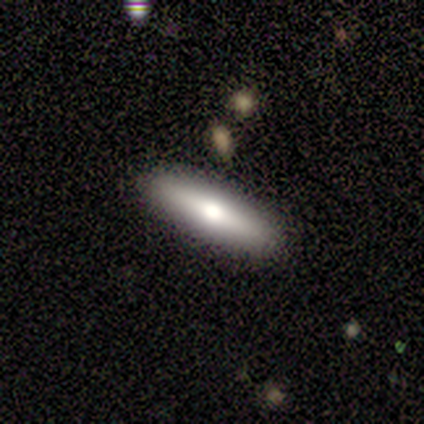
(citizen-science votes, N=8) Smooth or featured?
  - smooth: 75% *
  - featured or disk: 12%
  - star or artifact: 12%
How rounded?
  - cigar-shaped: 100% *
  - round: 0%
  - in between: 0%
Merging?
  - none: 86% *
  - minor disturbance: 14%
  - major disturbance: 0%
  - merger: 0%